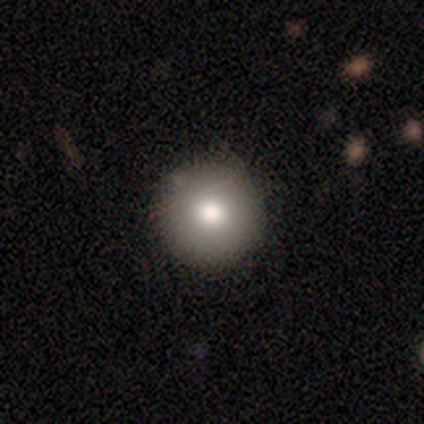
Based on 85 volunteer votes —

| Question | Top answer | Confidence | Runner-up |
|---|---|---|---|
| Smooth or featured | smooth | 74% | featured or disk (13%) |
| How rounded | round | 97% | in between (3%) |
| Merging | none | 95% | minor disturbance (5%) |